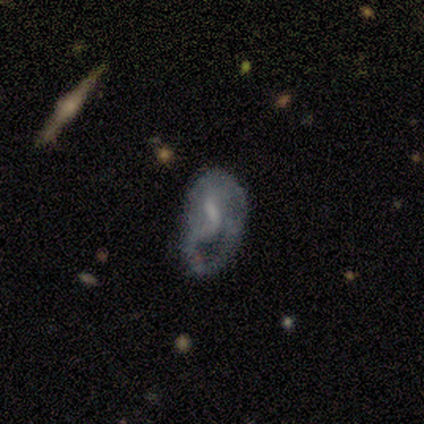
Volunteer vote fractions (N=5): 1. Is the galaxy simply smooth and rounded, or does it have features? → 80% featured or disk, 20% smooth, 0% star or artifact.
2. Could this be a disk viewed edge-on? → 100% no, 0% yes.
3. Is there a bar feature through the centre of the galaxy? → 75% weak, 25% strong, 0% no.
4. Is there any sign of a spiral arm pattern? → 75% yes, 25% no.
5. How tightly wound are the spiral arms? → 67% medium, 33% tight, 0% loose.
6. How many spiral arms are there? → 67% can't tell, 33% 2, 0% 1, 0% 3, 0% 4, 0% more than 4.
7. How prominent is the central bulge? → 75% moderate, 25% none, 0% dominant, 0% large, 0% small.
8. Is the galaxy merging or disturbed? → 60% major disturbance, 20% none, 20% minor disturbance, 0% merger.